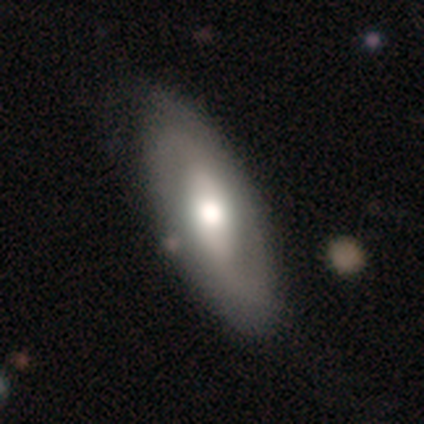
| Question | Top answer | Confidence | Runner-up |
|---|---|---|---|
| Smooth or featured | featured or disk | 54% | smooth (41%) |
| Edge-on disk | no | 90% | yes (10%) |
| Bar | weak | 42% | no (32%) |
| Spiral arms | yes | 79% | no (21%) |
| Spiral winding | medium | 60% | tight (27%) |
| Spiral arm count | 2 | 87% | 3 (7%) |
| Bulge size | moderate | 68% | large (26%) |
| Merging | none | 51% | minor disturbance (8%) |